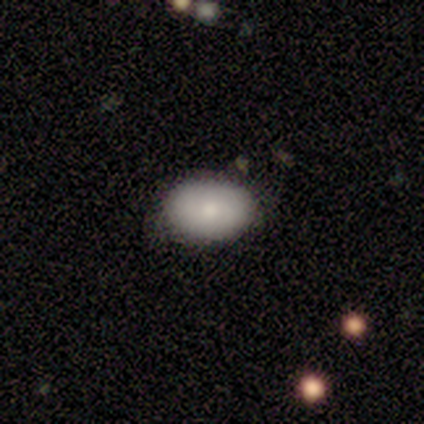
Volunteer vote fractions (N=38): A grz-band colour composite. It shows a smooth galaxy with no disk features (95%) that is in between round and cigar-shaped (89%). Merging: none (82%).